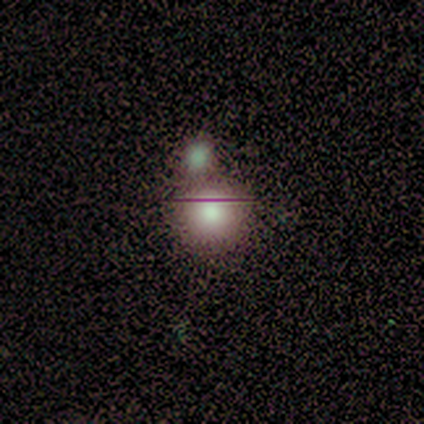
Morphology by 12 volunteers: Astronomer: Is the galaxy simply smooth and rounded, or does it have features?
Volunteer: smooth — 92%.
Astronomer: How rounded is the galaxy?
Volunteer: round — 100%.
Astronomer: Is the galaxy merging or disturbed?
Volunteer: none — 75%.